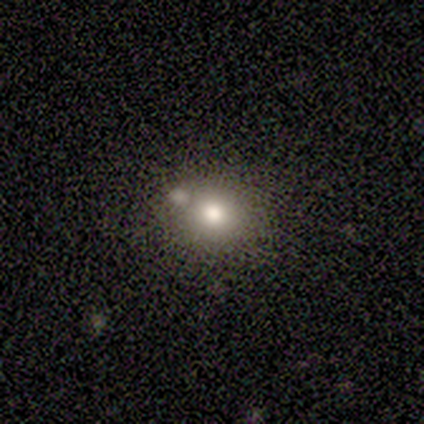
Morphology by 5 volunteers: A smooth galaxy with no disk features (40%, tied with star or artifact) that is round (50%, tied with in between).

Vote fractions:
- Smooth or featured? smooth: 40% (tied) / star or artifact: 40% (tied) / featured or disk: 20%
- How rounded? round: 50% (tied) / in between: 50% (tied) / cigar-shaped: 0%
- Merging? minor disturbance: 67% / none: 33% / major disturbance: 0% / merger: 0%